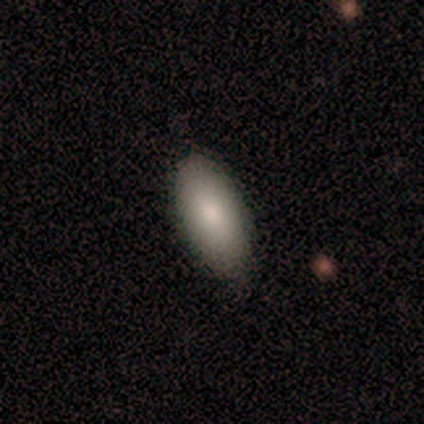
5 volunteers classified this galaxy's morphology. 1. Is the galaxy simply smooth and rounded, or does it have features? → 100% smooth, 0% featured or disk, 0% star or artifact.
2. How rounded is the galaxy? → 100% in between, 0% round, 0% cigar-shaped.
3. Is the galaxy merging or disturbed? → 80% none, 20% minor disturbance, 0% major disturbance, 0% merger.